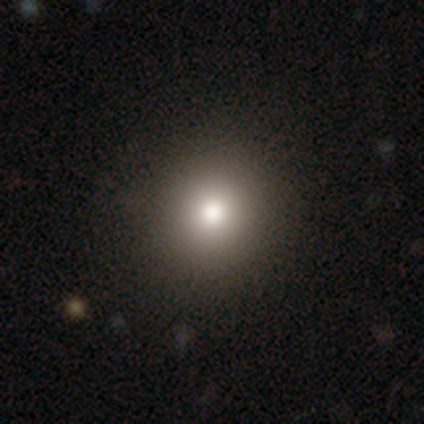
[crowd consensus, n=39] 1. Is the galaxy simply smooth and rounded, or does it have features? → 87% smooth, 10% featured or disk, 3% star or artifact.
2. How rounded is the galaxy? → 85% round, 15% in between, 0% cigar-shaped.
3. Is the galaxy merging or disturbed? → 55% none, 3% minor disturbance, 3% merger, 0% major disturbance.